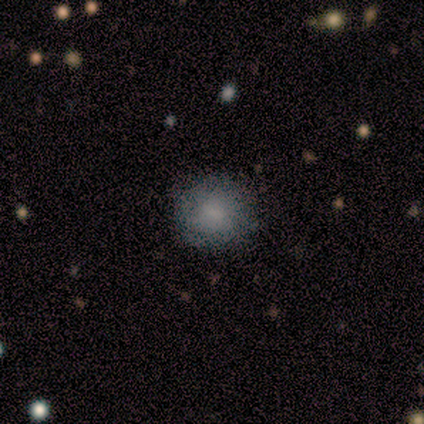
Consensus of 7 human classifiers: A smooth galaxy with no disk features (86%) that is round (83%).

Vote fractions:
- Smooth or featured? smooth: 86% / featured or disk: 14% / star or artifact: 0%
- How rounded? round: 83% / in between: 17% / cigar-shaped: 0%
- Merging? none: 71% / minor disturbance: 14% / major disturbance: 14% / merger: 0%